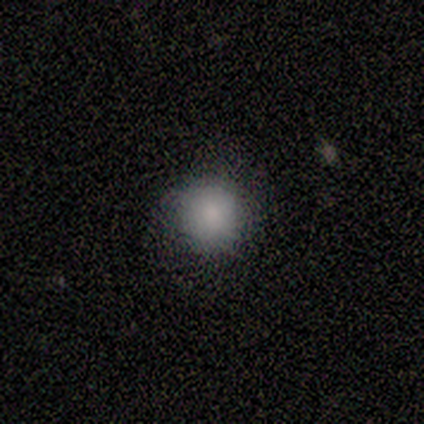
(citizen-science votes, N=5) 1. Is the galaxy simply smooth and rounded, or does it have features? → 100% smooth, 0% featured or disk, 0% star or artifact.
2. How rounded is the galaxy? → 100% round, 0% in between, 0% cigar-shaped.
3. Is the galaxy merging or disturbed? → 100% none, 0% minor disturbance, 0% major disturbance, 0% merger.